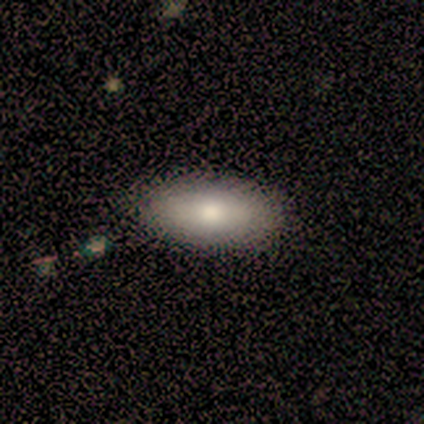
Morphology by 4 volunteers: Volunteers were most divided on "merging": none: 75%, minor disturbance: 25%, major disturbance: 0%, merger: 0%. More confident: smooth or featured — smooth (100%); how rounded — in between (100%).